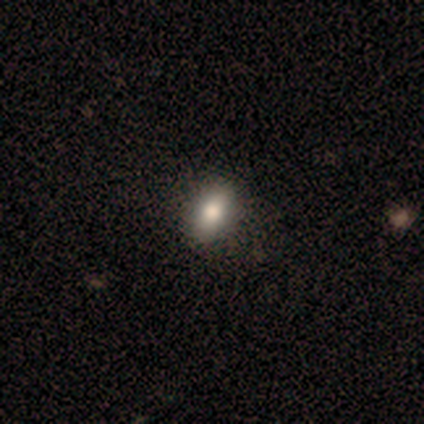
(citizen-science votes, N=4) Consensus on every question: smooth or featured — smooth (100%); how rounded — in between (100%); merging — none (100%).